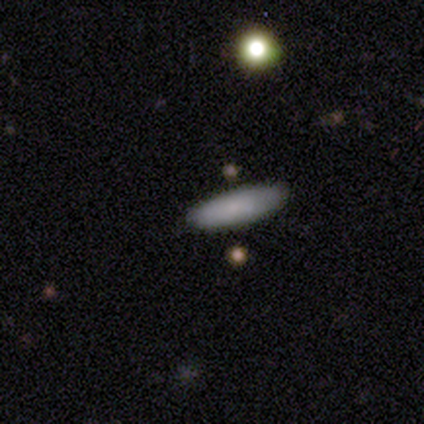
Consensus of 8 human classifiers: Q: Smooth or featured?
A: smooth (75%); runner-up: featured or disk (25%)
Q: How rounded?
A: in between (83%); runner-up: cigar-shaped (17%)
Q: Merging?
A: none (75%); runner-up: minor disturbance (12%)